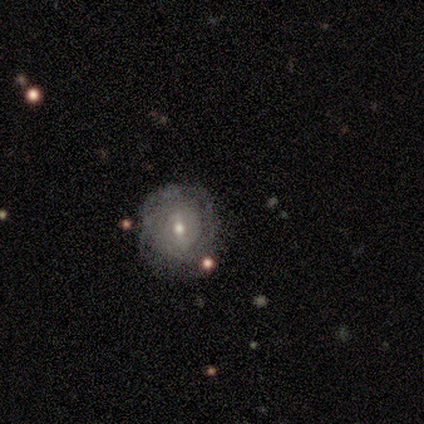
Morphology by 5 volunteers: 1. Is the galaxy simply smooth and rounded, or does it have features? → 60% featured or disk, 40% smooth, 0% star or artifact.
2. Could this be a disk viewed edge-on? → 100% no, 0% yes.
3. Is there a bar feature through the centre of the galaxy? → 100% weak, 0% strong, 0% no.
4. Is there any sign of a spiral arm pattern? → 67% yes, 33% no.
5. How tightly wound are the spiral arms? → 100% tight, 0% medium, 0% loose.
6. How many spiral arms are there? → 100% can't tell, 0% 1, 0% 2, 0% 3, 0% 4, 0% more than 4.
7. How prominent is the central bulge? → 67% moderate, 33% dominant, 0% large, 0% small, 0% none.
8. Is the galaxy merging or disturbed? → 80% none, 20% minor disturbance, 0% major disturbance, 0% merger.